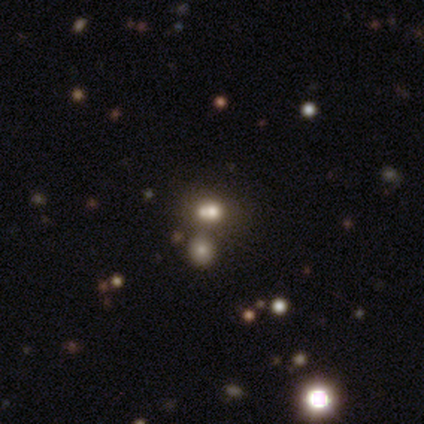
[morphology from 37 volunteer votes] A smooth galaxy with no disk features (51%) that is round (58%). Merging: none (45%, tied with merger).